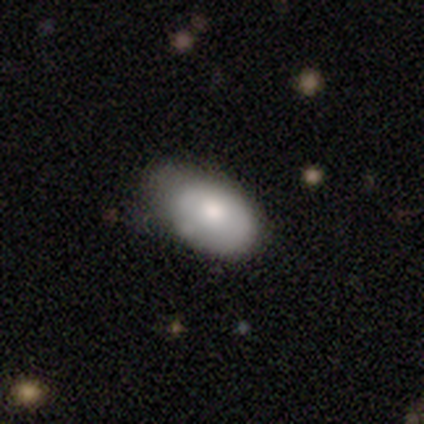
Smooth or featured? smooth (80%)
How rounded? in between (75%)
Merging? minor disturbance (80%)